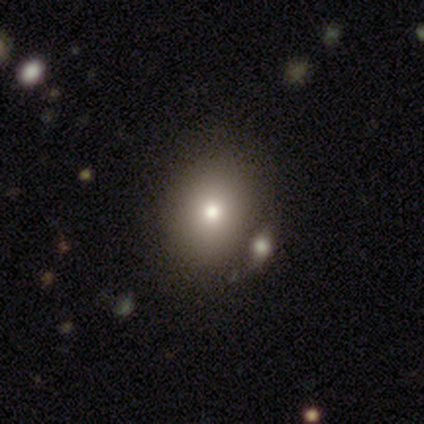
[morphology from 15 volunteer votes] Smooth or featured? smooth (60%)
How rounded? in between (67%)
Merging? none (58%)